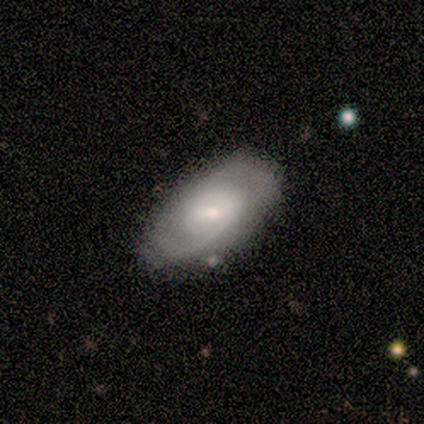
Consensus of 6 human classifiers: Volunteers were most divided on "spiral winding" (3-way tie): tight: 33%, medium: 33%, loose: 33%; "merging" (2-way tie): none: 50%, minor disturbance: 50%, major disturbance: 0%, merger: 0%. More confident: edge-on disk — no (100%); bar — no (75%); spiral arms — yes (75%); bulge size — small (75%); smooth or featured — featured or disk (67%); spiral arm count — 2 (67%).